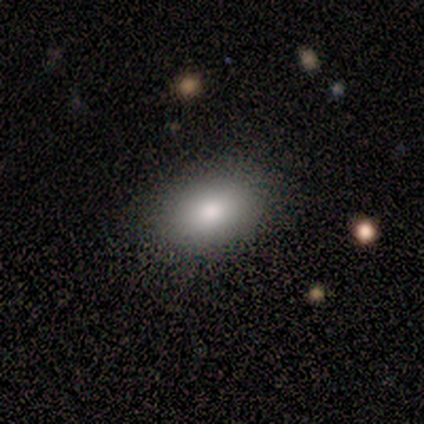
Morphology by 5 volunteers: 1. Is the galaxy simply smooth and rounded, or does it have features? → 60% smooth, 20% featured or disk, 20% star or artifact.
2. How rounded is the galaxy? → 67% in between, 33% round, 0% cigar-shaped.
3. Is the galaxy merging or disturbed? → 75% none, 25% minor disturbance, 0% major disturbance, 0% merger.